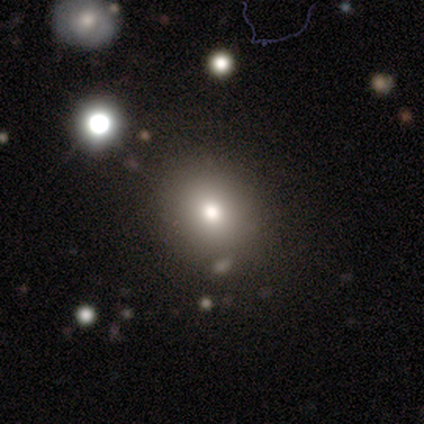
Q: Smooth or featured?
A: smooth (67%); runner-up: featured or disk (33%)
Q: How rounded?
A: round (100%)
Q: Merging?
A: none (100%)